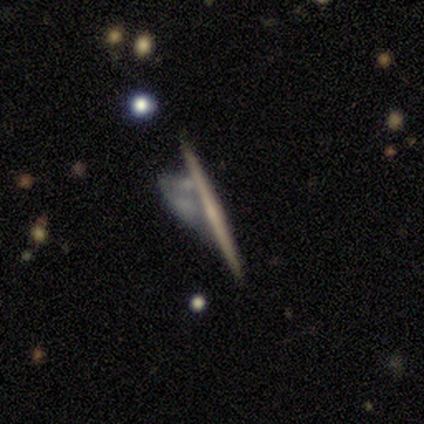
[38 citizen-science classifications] Smooth or featured? featured or disk (71%)
Edge-on disk? yes (100%)
Edge-on bulge? none (70%)
Merging? none (32%)